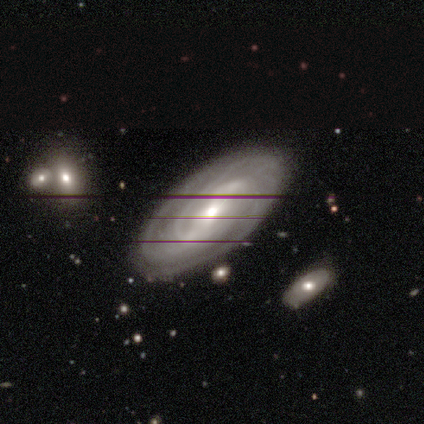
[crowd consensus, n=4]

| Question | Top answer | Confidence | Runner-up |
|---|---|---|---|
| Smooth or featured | featured or disk | 75% | smooth (25%) |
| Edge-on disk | no | 67% | yes (33%) |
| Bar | strong | 50% | tied: weak (50%) |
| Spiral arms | yes | 100% | — |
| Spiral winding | tight | 100% | — |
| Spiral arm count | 2 | 50% | tied: 3 (50%) |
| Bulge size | moderate | 50% | tied: small (50%) |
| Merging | none | 50% | tied: minor disturbance (50%) |